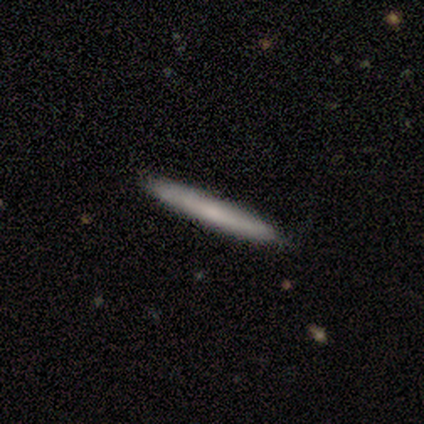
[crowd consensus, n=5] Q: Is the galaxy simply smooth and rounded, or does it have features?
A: smooth — 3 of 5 (60%).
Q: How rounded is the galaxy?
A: cigar-shaped — 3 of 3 (100%).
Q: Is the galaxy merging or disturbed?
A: none — 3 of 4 (75%).